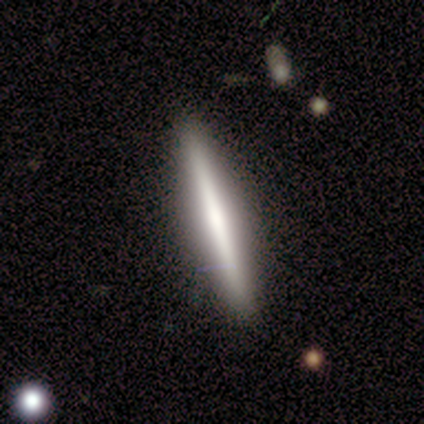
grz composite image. It shows a featured or disk galaxy (80%) viewed edge-on (100%) with no central bulge (50%, tied with rounded). Merging: none (80%).